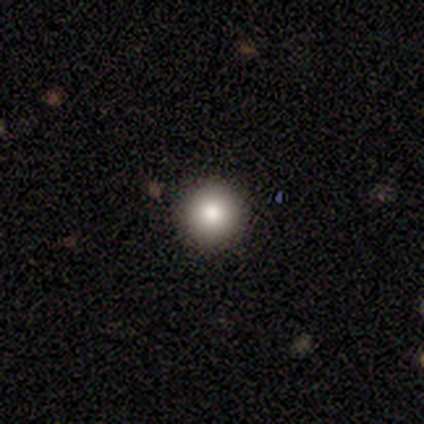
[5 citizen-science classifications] Smooth or featured?
  - smooth: 100% *
  - featured or disk: 0%
  - star or artifact: 0%
How rounded?
  - round: 100% *
  - in between: 0%
  - cigar-shaped: 0%
Merging?
  - none: 100% *
  - minor disturbance: 0%
  - major disturbance: 0%
  - merger: 0%